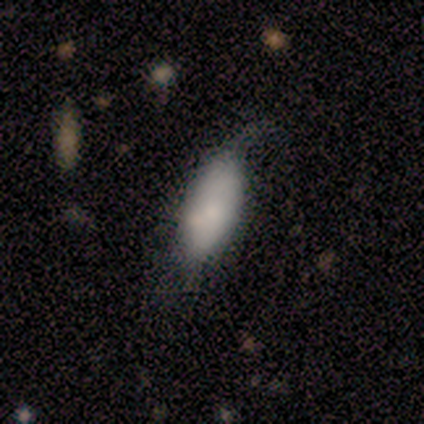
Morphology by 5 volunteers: A smooth galaxy with no disk features (60%) that is in between round and cigar-shaped (100%). Merging: none (50%, tied with minor disturbance).